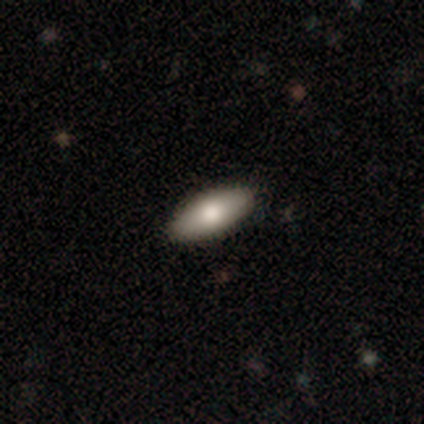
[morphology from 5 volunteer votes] Smooth or featured?
  - smooth: 60% *
  - featured or disk: 40%
  - star or artifact: 0%
How rounded?
  - in between: 67% *
  - cigar-shaped: 33%
  - round: 0%
Merging?
  - none: 100% *
  - minor disturbance: 0%
  - major disturbance: 0%
  - merger: 0%